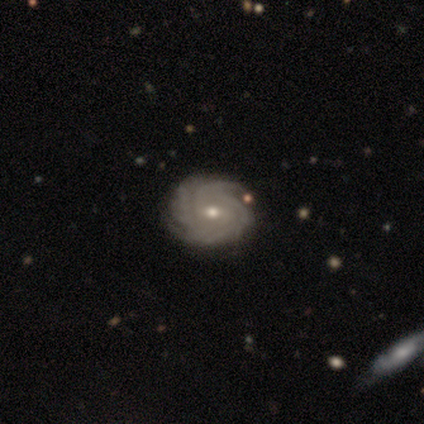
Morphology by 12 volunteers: smooth_or_featured: featured or disk (p=0.92) [alt: smooth p=0.08]
disk_edge_on: no (p=0.91) [alt: yes p=0.09]
bar: weak (p=0.60) [alt: no p=0.30]
has_spiral_arms: yes (p=1.00)
spiral_winding: tight (p=0.80) [alt: medium p=0.20]
spiral_arm_count: can't tell (p=0.40) [alt: 3 p=0.20]
bulge_size: small (p=0.70) [alt: moderate p=0.30]
merging: none (p=0.92) [alt: minor disturbance p=0.08]